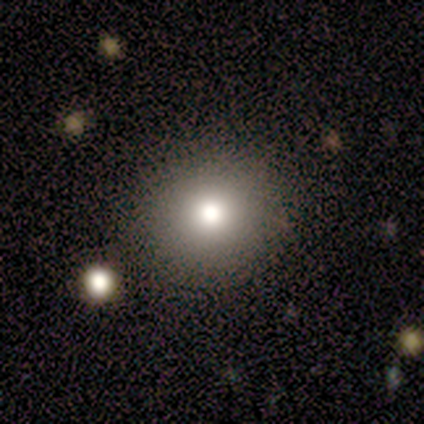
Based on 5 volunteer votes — Smooth or featured? 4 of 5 (80%) said smooth. How rounded? 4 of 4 (100%) said round. Merging? 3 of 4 (75%) said none.